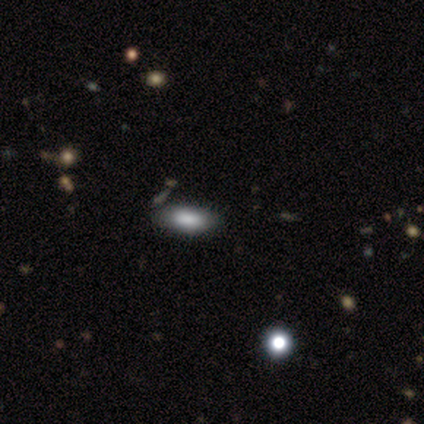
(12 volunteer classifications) Smooth or featured: smooth — 83% (star or artifact — 17%)
How rounded: in between — 80% (round — 10%)
Merging: none — 80% (minor disturbance — 10%)